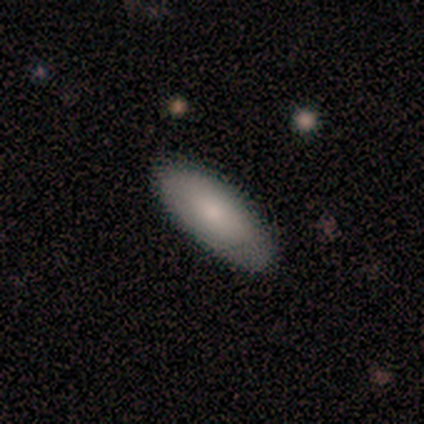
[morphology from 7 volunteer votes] smooth_or_featured: smooth (p=0.71) [alt: featured or disk p=0.14]
how_rounded: in between (p=1.00)
merging: none (p=0.67) [alt: minor disturbance p=0.33]